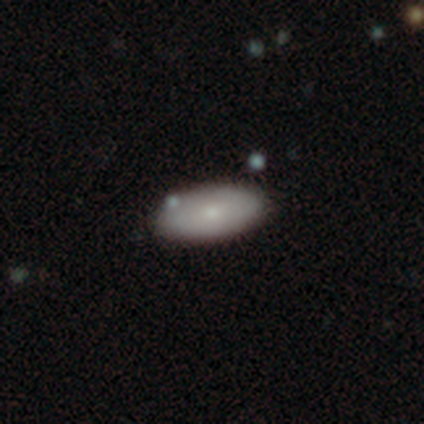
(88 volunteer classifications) smooth-or-featured: smooth: 67% | featured or disk: 25% | star or artifact: 8%
  how-rounded: in between: 90% | cigar-shaped: 8% | round: 2%
  merging: none: 84% | minor disturbance: 7% | merger: 5% | major disturbance: 4%